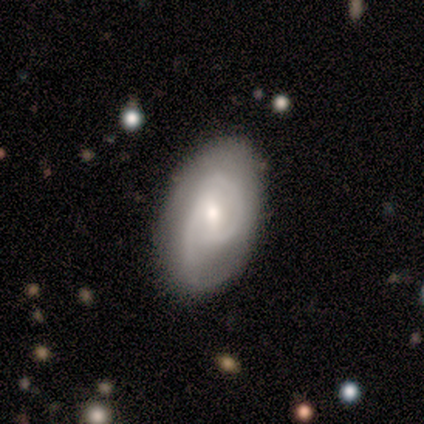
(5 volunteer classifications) A featured or disk galaxy (60%) with no bar (67%), 2 (67%) tight (33%, tied with medium and loose) spiral arms (100%) and a small central bulge (100%).

Vote fractions:
- Smooth or featured? featured or disk: 60% / smooth: 20% / star or artifact: 20%
- Edge-on disk? no: 100% / yes: 0%
- Bar? no: 67% / weak: 33% / strong: 0%
- Spiral arms? yes: 100% / no: 0%
- Spiral winding? tight: 33% (tied) / medium: 33% (tied) / loose: 33% (tied)
- Spiral arm count? 2: 67% / 1: 33% / 3: 0% / 4: 0% / more than 4: 0% / can't tell: 0%
- Bulge size? small: 100% / dominant: 0% / large: 0% / moderate: 0% / none: 0%
- Merging? none: 75% / minor disturbance: 25% / major disturbance: 0% / merger: 0%